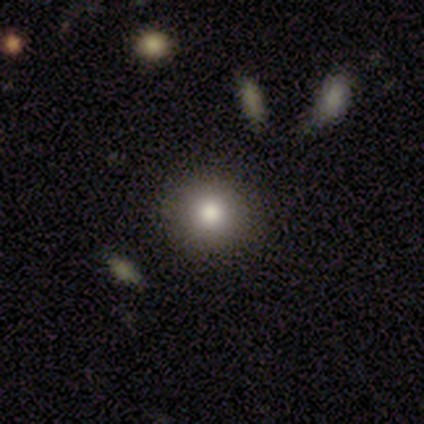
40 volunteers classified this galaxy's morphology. Volunteers were most divided on "smooth or featured": smooth: 72%, featured or disk: 18%, star or artifact: 10%. More confident: how rounded — round (100%); merging — none (89%).